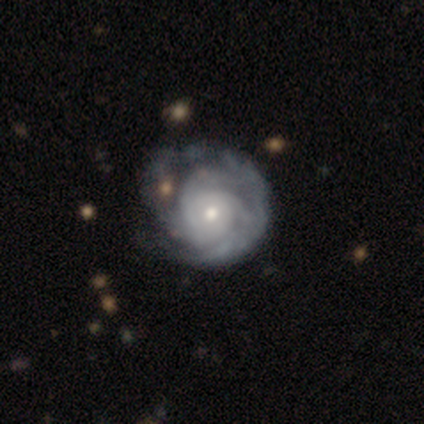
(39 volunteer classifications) Smooth or featured: featured or disk — 87% (smooth — 10%)
Edge-on disk: no — 100%
Bar: no — 91% (weak — 9%)
Spiral arms: yes — 88% (no — 12%)
Spiral winding: tight — 80% (medium — 13%)
Spiral arm count: can't tell — 40% (3 — 37%)
Bulge size: moderate — 50% (small — 44%)
Merging: none — 39% (minor disturbance — 11%)